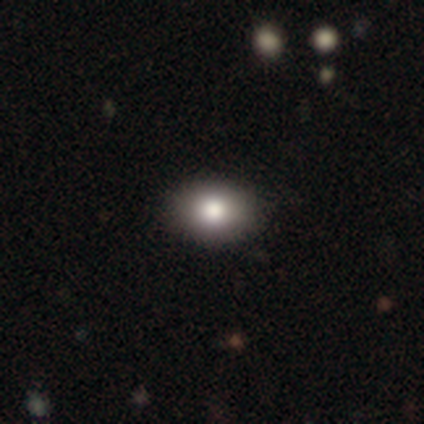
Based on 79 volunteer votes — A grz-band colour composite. It shows a smooth galaxy with no disk features (85%) that is in between round and cigar-shaped (72%). Merging: none (42%).